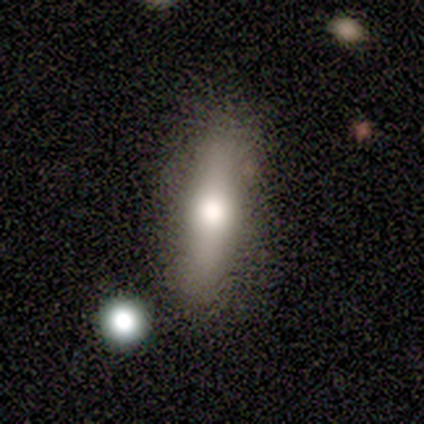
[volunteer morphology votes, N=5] This is likely a smooth galaxy (60%). How rounded: clearly cigar-shaped (100%). Merging: clearly none (100%).